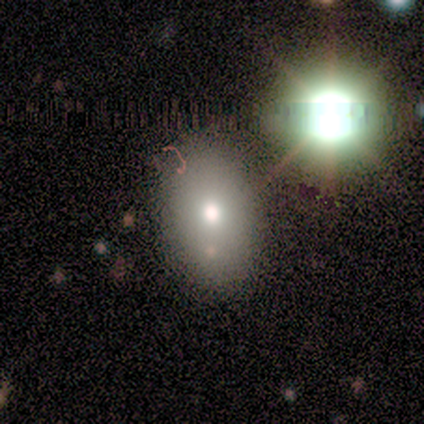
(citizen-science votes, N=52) smooth_or_featured: smooth (p=0.71) [alt: star or artifact p=0.15]
how_rounded: in between (p=0.86) [alt: round p=0.14]
merging: none (p=0.77) [alt: minor disturbance p=0.09]